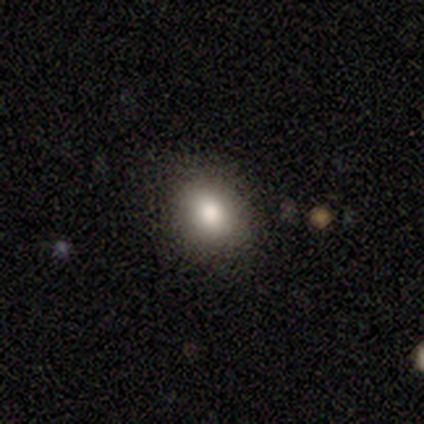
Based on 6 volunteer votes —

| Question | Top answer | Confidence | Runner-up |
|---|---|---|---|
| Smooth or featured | smooth | 83% | featured or disk (17%) |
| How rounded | round | 60% | in between (40%) |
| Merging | none | 100% | — |